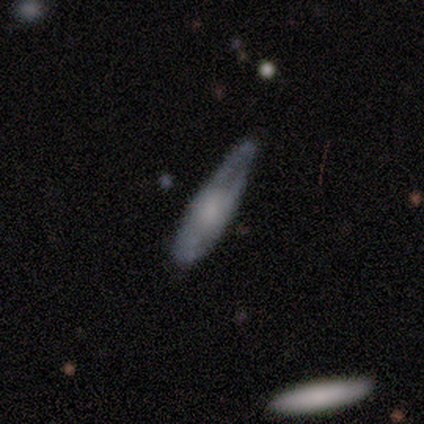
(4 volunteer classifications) This appears to be a smooth galaxy with no disk features (75%) that is in between round and cigar-shaped (67%). Merging: none (50%, tied with major disturbance).